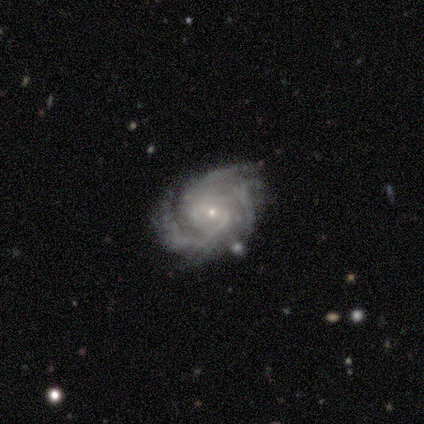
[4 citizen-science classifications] This appears to be a featured or disk galaxy (75%) with no bar (100%), 3 (33%, tied with more than 4 and can't tell) tight (67%) spiral arms (100%) and a small central bulge (100%). Merging: none (100%).